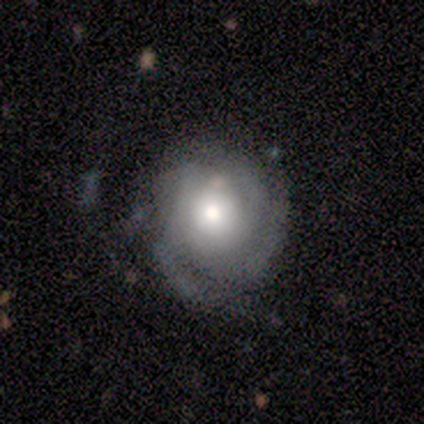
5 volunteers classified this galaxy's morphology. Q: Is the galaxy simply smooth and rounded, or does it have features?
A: featured or disk — 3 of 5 (60%).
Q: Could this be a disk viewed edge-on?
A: no — 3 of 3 (100%).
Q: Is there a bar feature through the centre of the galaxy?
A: no — 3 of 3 (100%).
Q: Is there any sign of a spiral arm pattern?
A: yes — 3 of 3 (100%).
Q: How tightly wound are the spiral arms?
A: tight — 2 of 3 (67%).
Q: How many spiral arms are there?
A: can't tell — 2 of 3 (67%).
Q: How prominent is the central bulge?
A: moderate — 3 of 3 (100%).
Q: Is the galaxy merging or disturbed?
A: minor disturbance — 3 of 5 (60%).